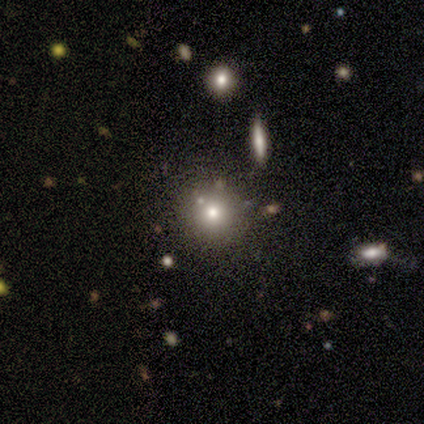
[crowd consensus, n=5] Smooth or featured? 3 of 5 (60%) said smooth. How rounded? 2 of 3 (67%) said round. Merging? 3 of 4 (75%) said none.